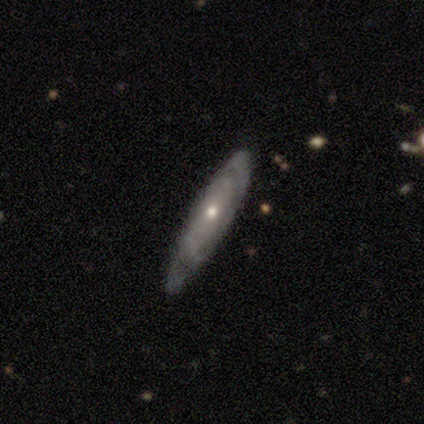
smooth 40% (tied), featured or disk 40% (tied), star or artifact 20%. Down the decision tree: how rounded — cigar-shaped (100%); merging — none (75%).